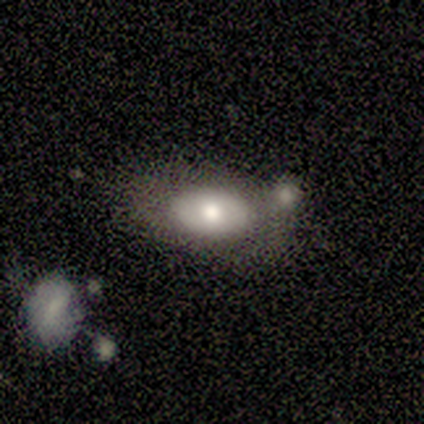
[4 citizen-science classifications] smooth_or_featured: smooth (p=1.00)
how_rounded: in between (p=1.00)
merging: minor disturbance (p=0.50) [alt: none p=0.25]